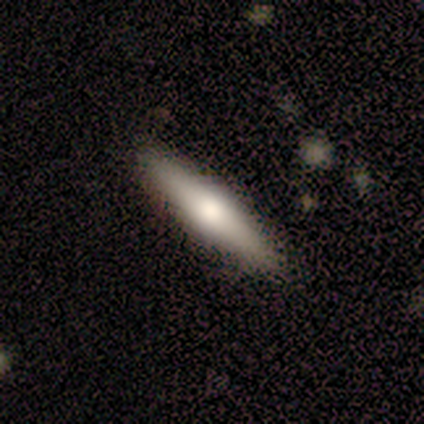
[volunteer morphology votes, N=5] type=featured or disk (80%); edge-on=yes (100%); edge-on bulge=rounded (100%); merging=none (100%).